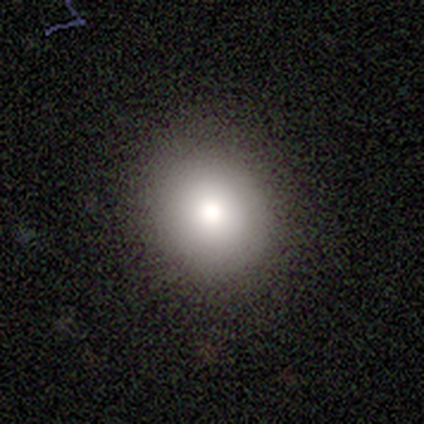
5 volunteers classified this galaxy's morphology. A smooth galaxy with no disk features (80%) that is round (75%).

Vote fractions:
- Smooth or featured? smooth: 80% / featured or disk: 20% / star or artifact: 0%
- How rounded? round: 75% / in between: 25% / cigar-shaped: 0%
- Merging? none: 100% / minor disturbance: 0% / major disturbance: 0% / merger: 0%